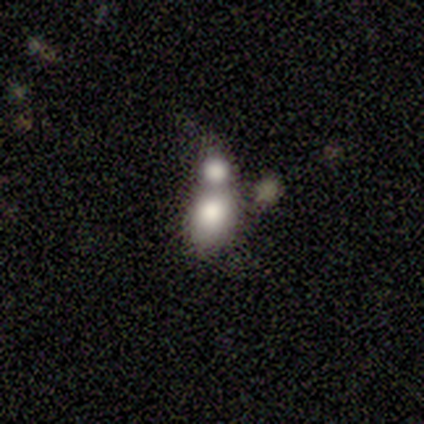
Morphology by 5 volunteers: smooth 60%, featured or disk 20%, star or artifact 20%. Down the decision tree: how rounded — round (67%); merging — merger (75%).